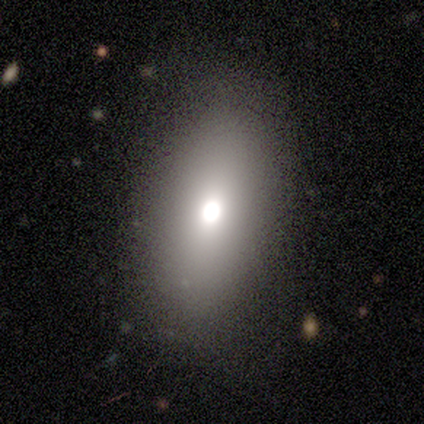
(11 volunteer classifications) A smooth galaxy with no disk features (82%) that is in between round and cigar-shaped (56%).

Vote fractions:
- Smooth or featured? smooth: 82% / featured or disk: 18% / star or artifact: 0%
- How rounded? in between: 56% / round: 33% / cigar-shaped: 11%
- Merging? none: 91% / minor disturbance: 9% / major disturbance: 0% / merger: 0%